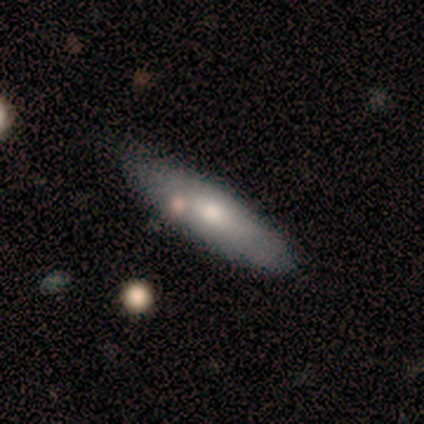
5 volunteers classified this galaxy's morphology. Smooth or featured? featured or disk (60%)
Edge-on disk? no (67%)
Bar? weak (50%, tied with no)
Spiral arms? no (100%)
Bulge size? large (100%)
Merging? none (60%)